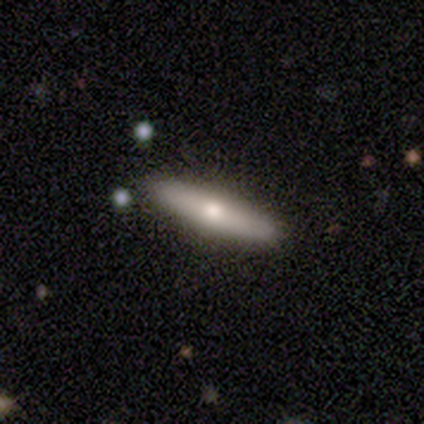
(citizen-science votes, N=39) smooth-or-featured: smooth: 56% | featured or disk: 41% | star or artifact: 3%
  how-rounded: cigar-shaped: 73% | in between: 27% | round: 0%
  merging: none: 92% | minor disturbance: 5% | major disturbance: 3% | merger: 0%